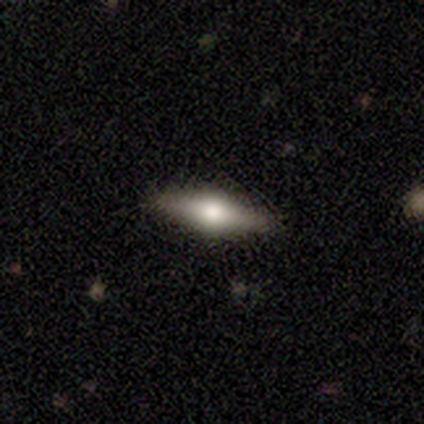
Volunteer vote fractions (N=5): smooth_or_featured: featured or disk (p=0.60) [alt: smooth p=0.40]
disk_edge_on: yes (p=1.00)
edge_on_bulge: rounded (p=1.00)
merging: none (p=0.80) [alt: merger p=0.20]